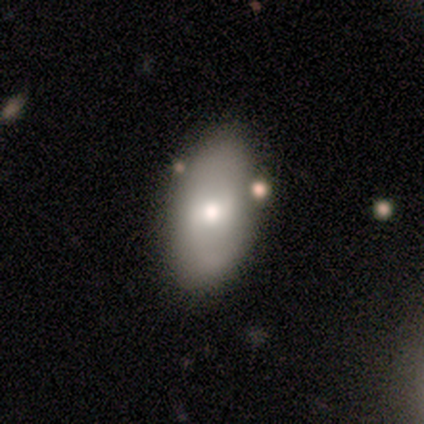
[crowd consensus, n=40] Smooth or featured? smooth (52%)
How rounded? in between (90%)
Merging? none (66%)